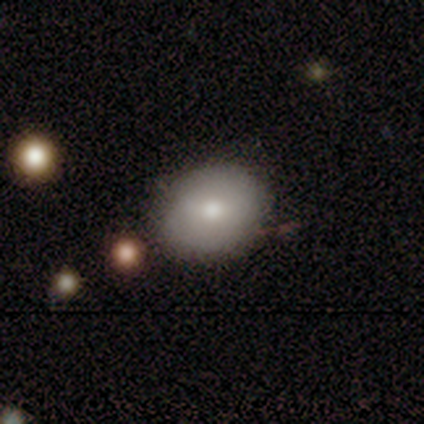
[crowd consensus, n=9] Volunteers were most divided on "how rounded": in between: 67%, round: 33%, cigar-shaped: 0%. More confident: merging — none (75%); smooth or featured — smooth (67%).